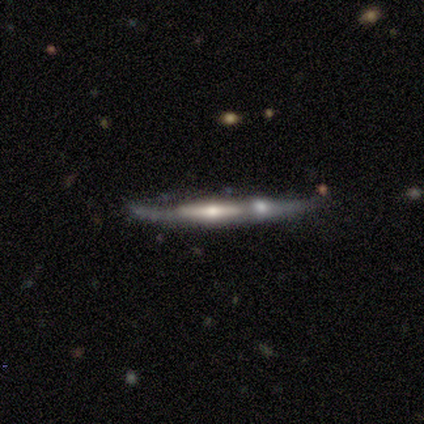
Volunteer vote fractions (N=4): A featured or disk galaxy (75%) viewed edge-on (67%) with a rounded central bulge (100%). Merging: none (50%, tied with merger).